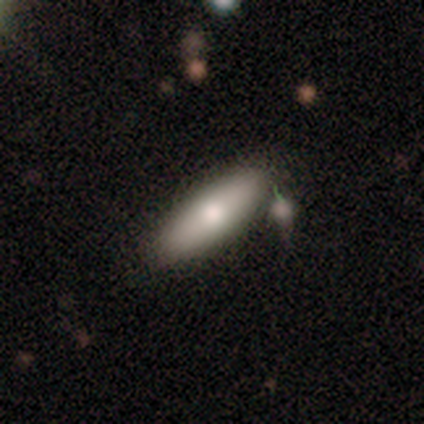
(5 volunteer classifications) Smooth or featured? smooth (100%)
How rounded? cigar-shaped (60%)
Merging? none (60%)